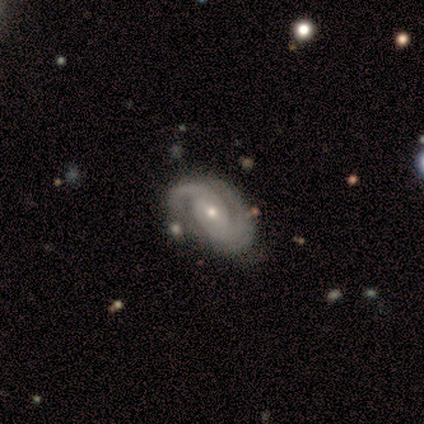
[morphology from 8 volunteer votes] smooth_or_featured: featured or disk (p=1.00)
disk_edge_on: no (p=1.00)
bar: no (p=0.62) [alt: weak p=0.25]
has_spiral_arms: yes (p=1.00)
spiral_winding: tight (p=0.75) [alt: medium p=0.25]
spiral_arm_count: 2 (p=0.88) [alt: 1 p=0.12]
bulge_size: small (p=0.62) [alt: moderate p=0.38]
merging: none (p=0.62) [alt: minor disturbance p=0.25]